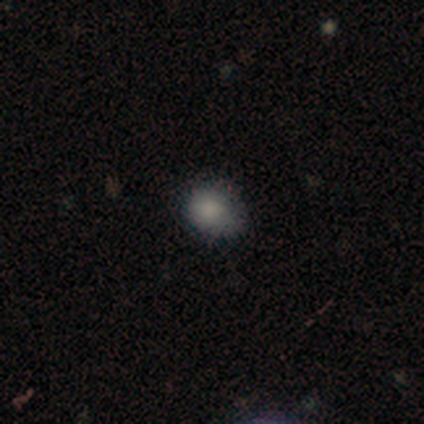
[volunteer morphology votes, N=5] This is clearly a smooth galaxy (80%). How rounded: possibly round (50%, tied with in between). Merging: possibly none (50%, tied with minor disturbance).